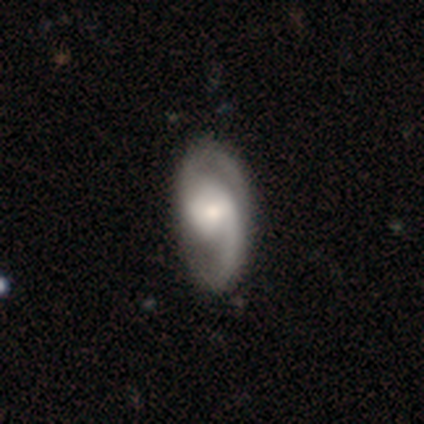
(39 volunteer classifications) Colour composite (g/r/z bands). It shows a featured or disk galaxy (92%) with no bar (58%), 2 (91%) medium (51%) spiral arms (97%) and a moderate central bulge (53%). Merging: none (44%).